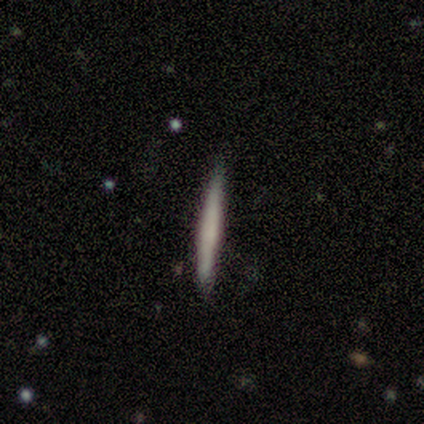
Overall: featured or disk (71%). Edge-on disk: yes (100%). Edge-on bulge: none (80%). Merging: none (86%).